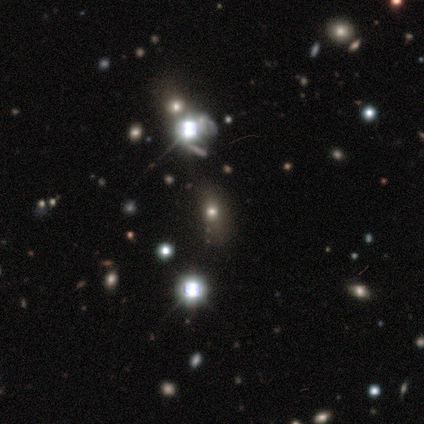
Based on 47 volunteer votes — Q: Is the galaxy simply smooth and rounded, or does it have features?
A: star or artifact — 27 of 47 (57%).